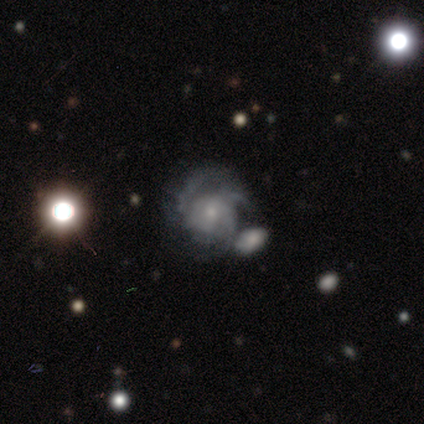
This is clearly a featured or disk galaxy (85%). It is clearly not viewed edge-on (100%). Bar: likely no (76%). Spiral arm pattern: clearly yes (95%). Spiral arm count: likely 3 (64%). Spiral winding: possibly medium (51%). Central bulge: possibly small (51%). Merging: possibly none (48%).